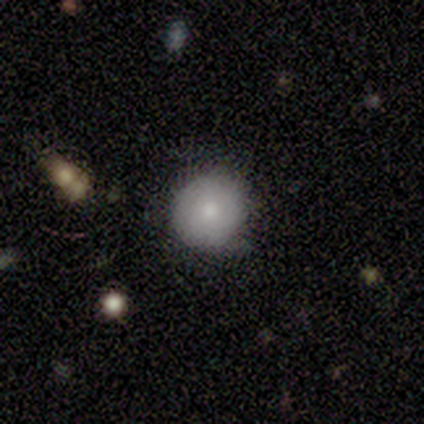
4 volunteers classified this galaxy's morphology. This is likely a smooth galaxy (75%). How rounded: clearly round (100%). Merging: likely none (75%).